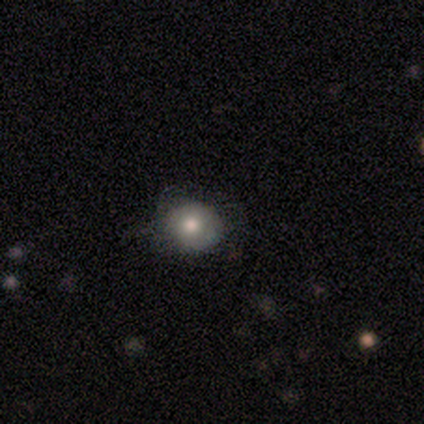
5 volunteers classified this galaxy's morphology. type=smooth (80%); roundness=round (100%); merging=none (60%).